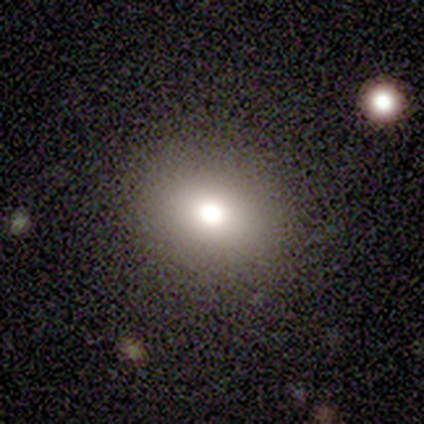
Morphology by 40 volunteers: smooth 60%, star or artifact 25%, featured or disk 15%. Down the decision tree: how rounded — round (83%); merging — none (87%).